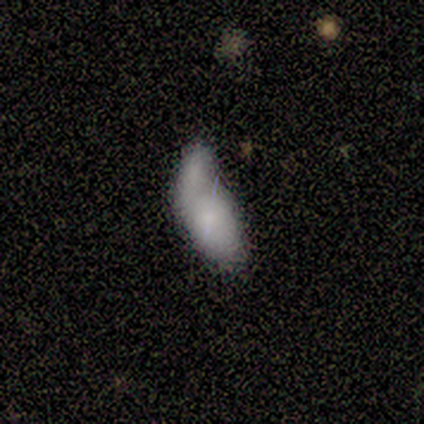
smooth-or-featured: smooth: 100% | featured or disk: 0% | star or artifact: 0%
  how-rounded: in between: 80% | cigar-shaped: 20% | round: 0%
  merging: major disturbance: 40% (tied) | merger: 40% (tied) | minor disturbance: 20% | none: 0%